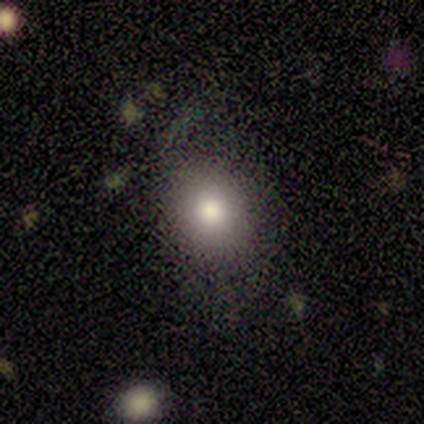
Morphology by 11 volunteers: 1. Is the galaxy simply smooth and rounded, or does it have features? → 82% smooth, 18% featured or disk, 0% star or artifact.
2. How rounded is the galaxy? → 56% round, 44% in between, 0% cigar-shaped.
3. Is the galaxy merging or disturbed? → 73% none, 27% minor disturbance, 0% major disturbance, 0% merger.